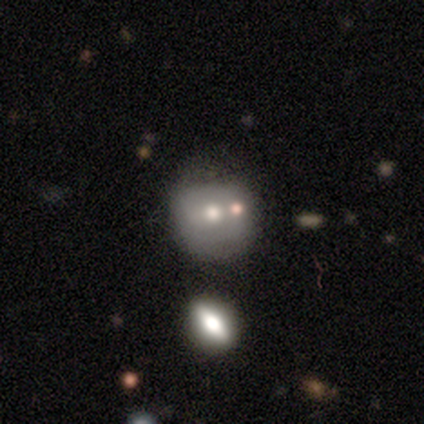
Q: Smooth or featured?
A: smooth (60%); runner-up: featured or disk (40%)
Q: How rounded?
A: round (67%); runner-up: in between (33%)
Q: Merging?
A: none (40%); runner-up: minor disturbance (20%)